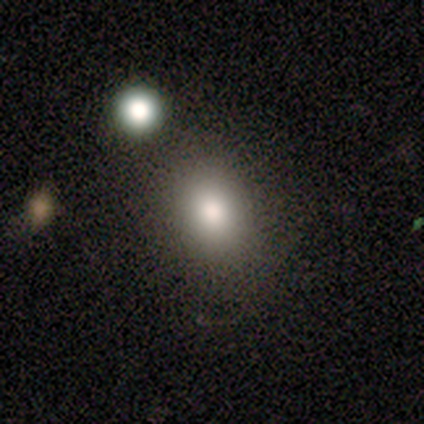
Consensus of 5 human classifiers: This is marginally a smooth galaxy (40%, tied with featured or disk). How rounded: clearly in between (100%). Merging: likely none (75%).